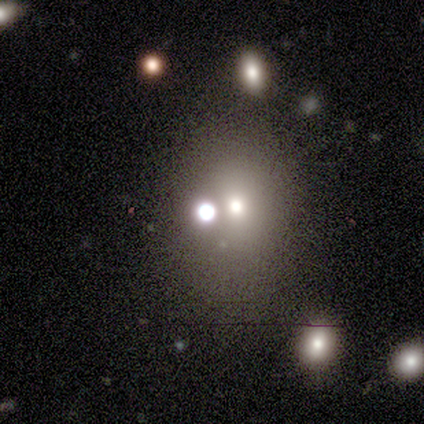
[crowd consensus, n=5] smooth 80%, featured or disk 20%, star or artifact 0%. Down the decision tree: how rounded — round (75%); merging — none (100%).